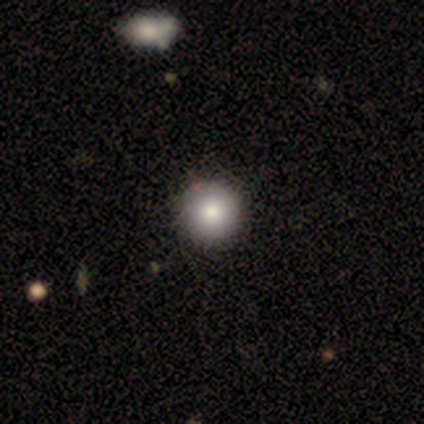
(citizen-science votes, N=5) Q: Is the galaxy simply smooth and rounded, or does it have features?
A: smooth — 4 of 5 (80%).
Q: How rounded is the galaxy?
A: round — 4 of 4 (100%).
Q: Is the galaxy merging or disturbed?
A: none — 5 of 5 (100%).